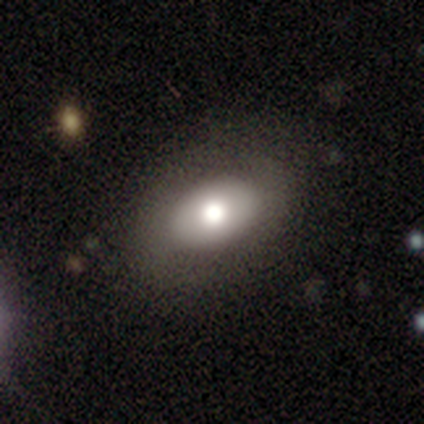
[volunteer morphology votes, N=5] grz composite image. It shows a featured or disk galaxy (60%) with no bar (100%), no spiral arms (100%) and a large central bulge (100%). Merging: none (100%).